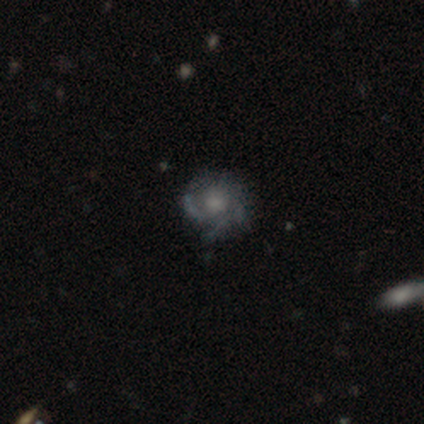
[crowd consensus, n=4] Q: Smooth or featured?
A: featured or disk (75%); runner-up: smooth (25%)
Q: Edge-on disk?
A: no (100%)
Q: Bar?
A: weak (67%); runner-up: no (33%)
Q: Spiral arms?
A: yes (100%)
Q: Spiral winding?
A: tight (33%); tied with: medium (33%); loose (33%)
Q: Spiral arm count?
A: can't tell (67%); runner-up: 3 (33%)
Q: Bulge size?
A: none (67%); runner-up: moderate (33%)
Q: Merging?
A: none (50%); runner-up: minor disturbance (25%)